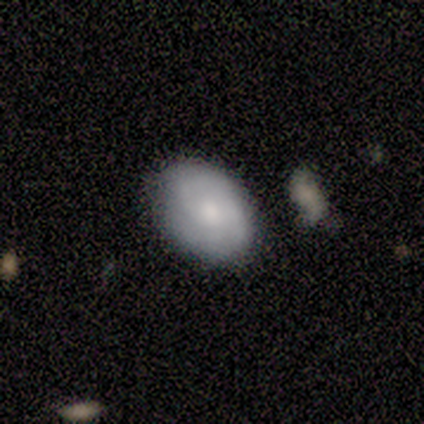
Overall: featured or disk (60%; smooth 20%). Edge-on disk: no (100%). Bar: no (67%; weak 33%). Spiral arms: yes (100%). Spiral arm count: 2 (100%). Spiral winding: loose (67%; medium 33%). Bulge size: large (33%, tied with moderate and small). Merging: none (75%).